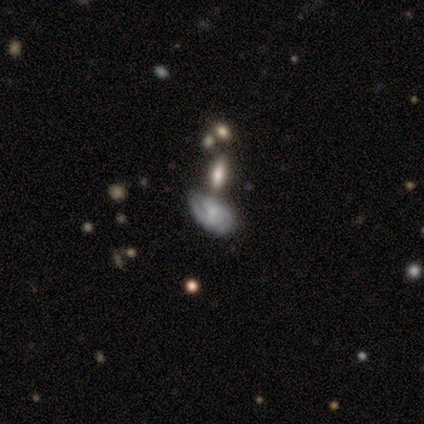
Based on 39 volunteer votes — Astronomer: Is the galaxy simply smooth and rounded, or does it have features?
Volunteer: featured or disk — 67%.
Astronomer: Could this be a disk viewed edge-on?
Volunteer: no — 92%.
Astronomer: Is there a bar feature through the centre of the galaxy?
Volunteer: no — 62%.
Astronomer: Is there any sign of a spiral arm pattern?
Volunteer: yes — 96%.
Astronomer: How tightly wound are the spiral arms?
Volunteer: tight — 48%, tied with medium at 48%.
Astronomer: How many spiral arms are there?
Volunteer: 2 — 43% (runner-up: can't tell, 39%).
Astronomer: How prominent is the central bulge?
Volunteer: small — 83%.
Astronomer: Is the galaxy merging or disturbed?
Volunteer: minor disturbance — 39% (runner-up: none, 35%).